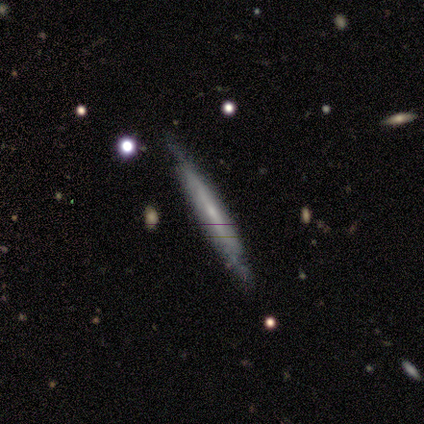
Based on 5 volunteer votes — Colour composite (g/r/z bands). It shows a smooth galaxy with no disk features (60%) that is cigar-shaped (100%). Merging: none (100%).